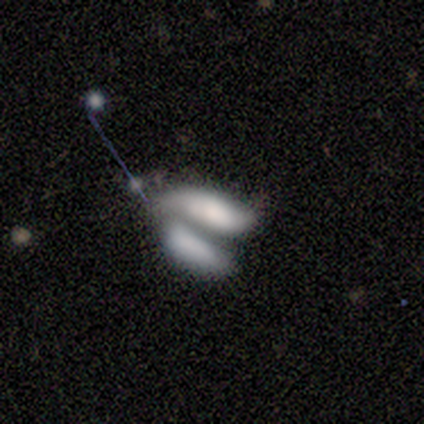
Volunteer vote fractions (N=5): Q: Smooth or featured?
A: smooth (60%); runner-up: featured or disk (40%)
Q: How rounded?
A: in between (67%); runner-up: cigar-shaped (33%)
Q: Merging?
A: merger (60%); runner-up: none (20%)